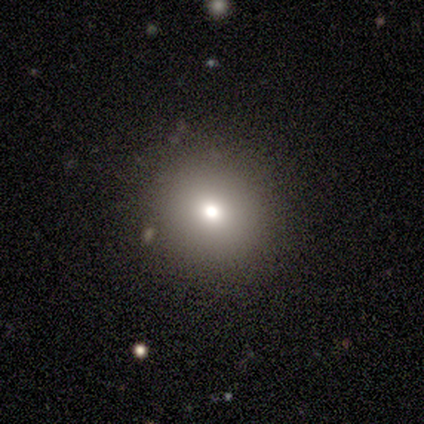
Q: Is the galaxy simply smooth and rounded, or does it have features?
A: smooth — 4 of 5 (80%).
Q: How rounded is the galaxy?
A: round — 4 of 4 (100%).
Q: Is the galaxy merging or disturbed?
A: none — 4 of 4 (100%).